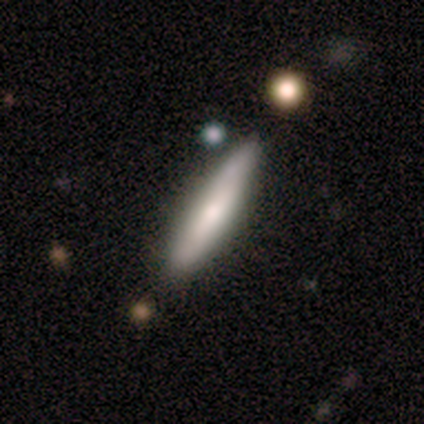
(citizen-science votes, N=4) smooth-or-featured: featured or disk: 75% | smooth: 25% | star or artifact: 0%
  disk-edge-on: yes: 100% | no: 0%
    edge-on-bulge: none: 100% | boxy: 0% | rounded: 0%
  merging: none: 75% | minor disturbance: 25% | major disturbance: 0% | merger: 0%